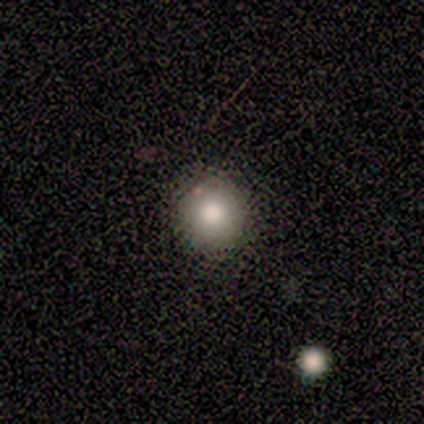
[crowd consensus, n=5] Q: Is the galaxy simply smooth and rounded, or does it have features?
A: smooth — 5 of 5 (100%).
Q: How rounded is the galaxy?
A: round — 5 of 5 (100%).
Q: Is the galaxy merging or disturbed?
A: none — 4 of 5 (80%).